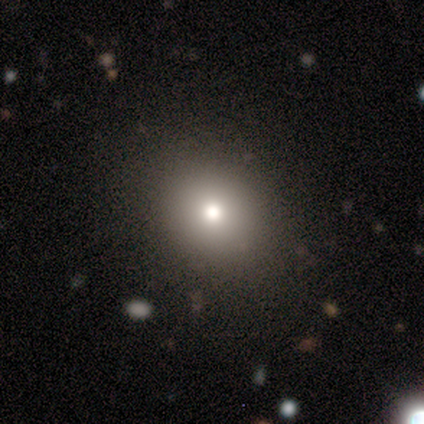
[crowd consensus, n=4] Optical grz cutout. It shows a smooth galaxy with no disk features (50%) that is round (50%, tied with in between). Merging: none (100%).